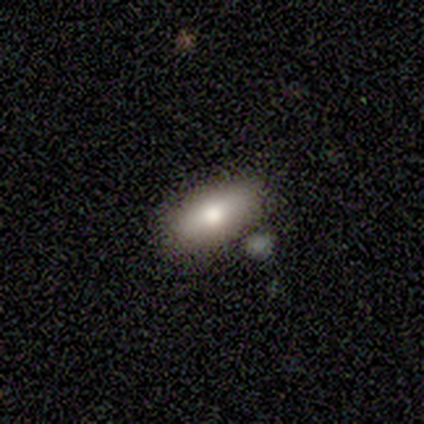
smooth_or_featured: smooth (p=1.00)
how_rounded: in between (p=1.00)
merging: none (p=0.80) [alt: minor disturbance p=0.20]